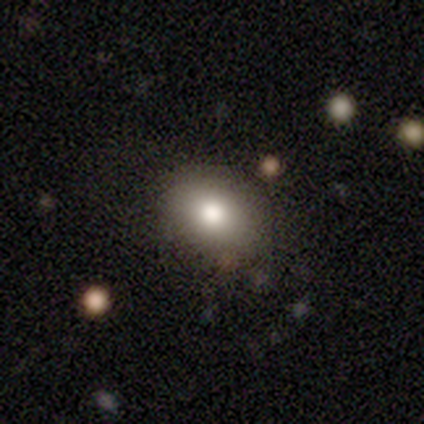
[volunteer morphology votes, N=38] Volunteers were most divided on "how rounded": in between: 55%, round: 45%, cigar-shaped: 0%. More confident: smooth or featured — smooth (87%); merging — none (80%).